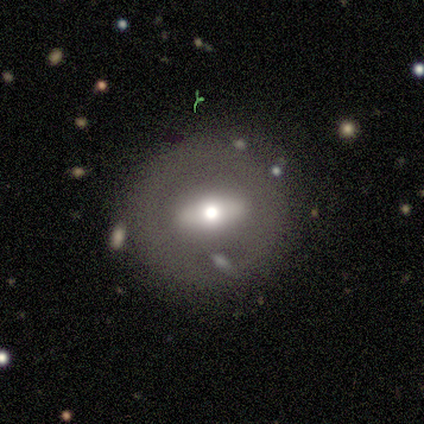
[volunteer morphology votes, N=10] Volunteers were most divided on "smooth or featured": smooth: 50%, featured or disk: 40%, star or artifact: 10%. More confident: merging — none (78%); how rounded — in between (60%).